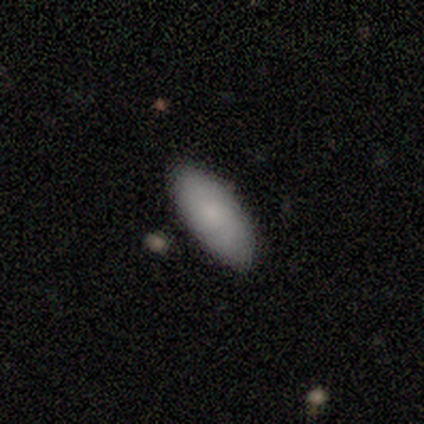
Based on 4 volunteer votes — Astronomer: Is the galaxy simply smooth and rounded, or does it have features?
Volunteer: smooth — 100%.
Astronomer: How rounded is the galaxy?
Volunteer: in between — 75%.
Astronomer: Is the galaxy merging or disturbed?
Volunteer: none — 100%.